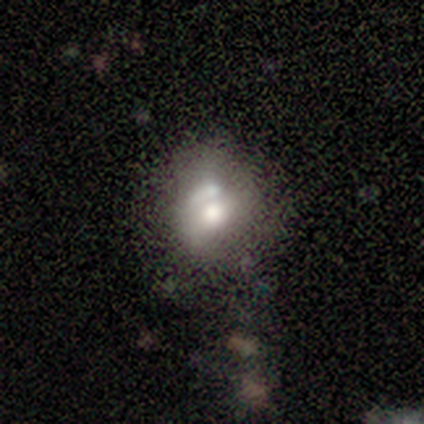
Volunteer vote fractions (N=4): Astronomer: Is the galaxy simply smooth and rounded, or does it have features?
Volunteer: smooth — 50%, tied with featured or disk at 50%.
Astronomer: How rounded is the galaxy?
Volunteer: round — 100%.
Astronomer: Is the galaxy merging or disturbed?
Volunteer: merger — 75%.